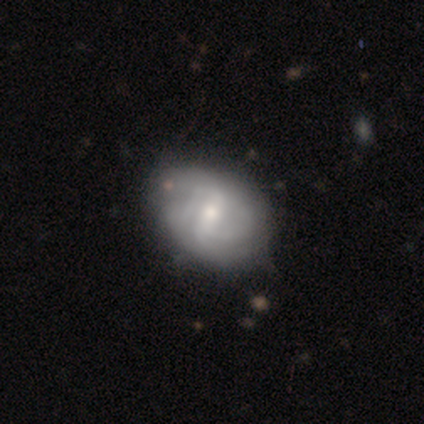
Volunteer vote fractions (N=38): Overall: featured or disk (68%; smooth 32%). Edge-on disk: no (100%). Bar: weak (62%; strong 27%). Spiral arms: yes (100%). Spiral arm count: 2 (31%; can't tell 27%). Spiral winding: medium (42%; tight 31%). Bulge size: moderate (42%; small 35%). Merging: none (42%; minor disturbance 24%).